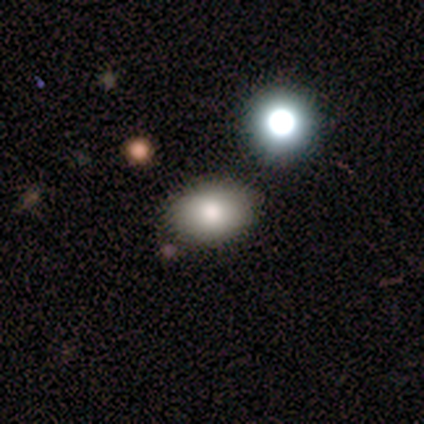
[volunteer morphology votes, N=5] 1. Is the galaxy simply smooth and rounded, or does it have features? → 100% smooth, 0% featured or disk, 0% star or artifact.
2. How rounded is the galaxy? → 100% in between, 0% round, 0% cigar-shaped.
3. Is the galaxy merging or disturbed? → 60% none, 20% minor disturbance, 20% merger, 0% major disturbance.